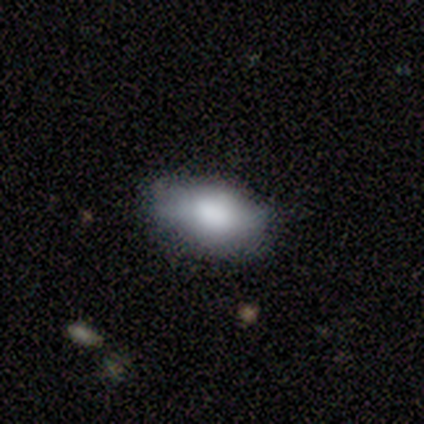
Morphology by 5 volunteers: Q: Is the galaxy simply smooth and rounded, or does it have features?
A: smooth — 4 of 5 (80%).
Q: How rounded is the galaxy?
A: in between — 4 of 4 (100%).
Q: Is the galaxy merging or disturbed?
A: none — 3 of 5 (60%).